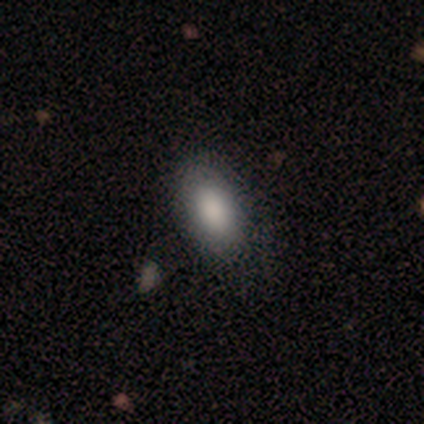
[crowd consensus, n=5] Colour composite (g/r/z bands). It shows a smooth galaxy with no disk features (80%) that is in between round and cigar-shaped (100%). Merging: none (60%).